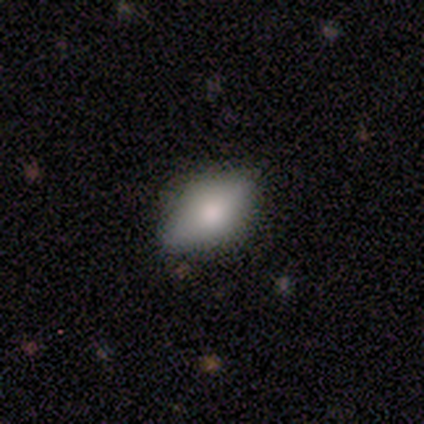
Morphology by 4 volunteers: Smooth or featured? smooth (75%)
How rounded? in between (100%)
Merging? none (100%)